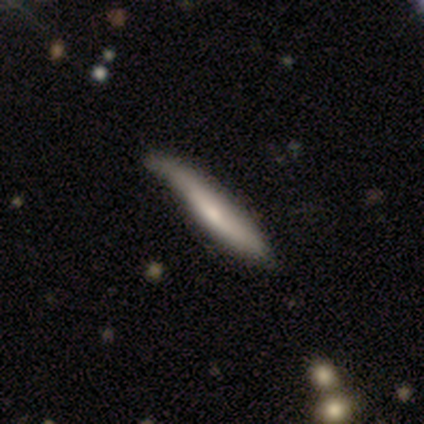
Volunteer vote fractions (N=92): Overall: smooth (60%; featured or disk 36%). How rounded: cigar-shaped (91%). Merging: minor disturbance (51%; none 45%).